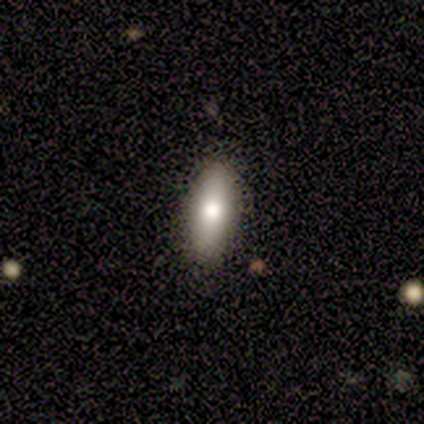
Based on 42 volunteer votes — Volunteers were most divided on "how rounded": in between: 56%, cigar-shaped: 41%, round: 3%. More confident: merging — none (90%); smooth or featured — smooth (76%).